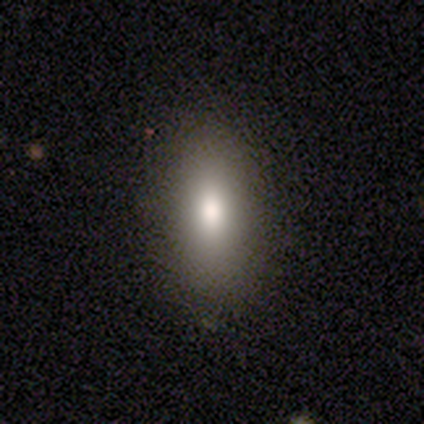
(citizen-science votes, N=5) A smooth galaxy with no disk features (80%) that is in between round and cigar-shaped (100%). Merging: none (100%).